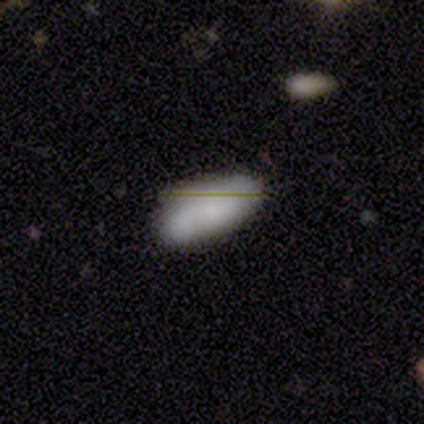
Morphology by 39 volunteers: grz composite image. It shows a smooth galaxy with no disk features (64%) that is in between round and cigar-shaped (92%). Merging: none (70%).